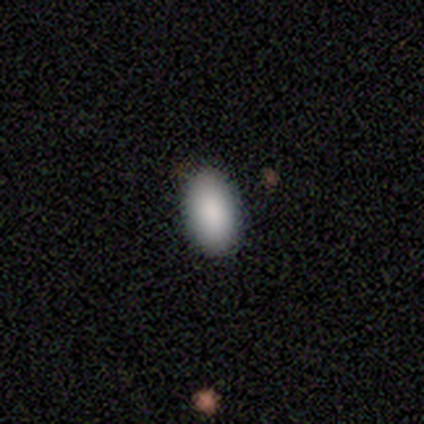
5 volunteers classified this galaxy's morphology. A smooth galaxy with no disk features (100%) that is in between round and cigar-shaped (100%).

Vote fractions:
- Smooth or featured? smooth: 100% / featured or disk: 0% / star or artifact: 0%
- How rounded? in between: 100% / round: 0% / cigar-shaped: 0%
- Merging? none: 100% / minor disturbance: 0% / major disturbance: 0% / merger: 0%